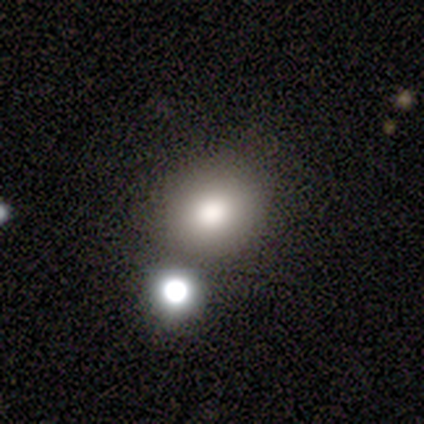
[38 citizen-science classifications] Overall: smooth (89%). How rounded: round (76%). Merging: none (69%).